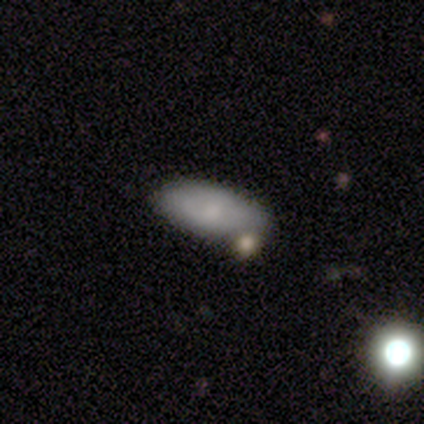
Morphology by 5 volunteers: This is clearly a smooth galaxy (80%). How rounded: clearly in between (100%). Merging: likely minor disturbance (60%).